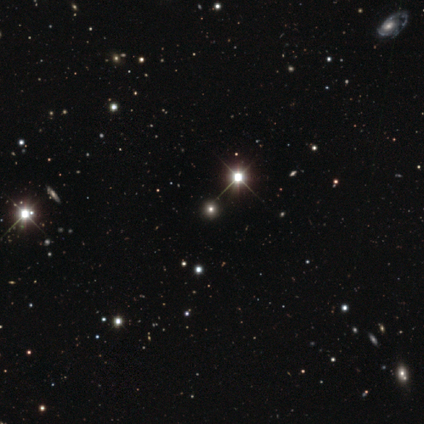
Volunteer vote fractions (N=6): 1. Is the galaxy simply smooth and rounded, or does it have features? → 100% star or artifact, 0% smooth, 0% featured or disk.